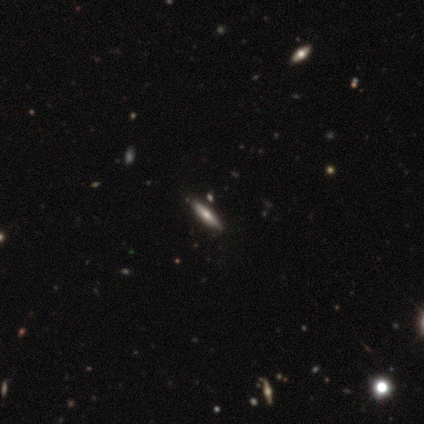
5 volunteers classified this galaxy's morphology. A featured or disk galaxy (80%) viewed edge-on (100%) with a rounded central bulge (100%).

Vote fractions:
- Smooth or featured? featured or disk: 80% / smooth: 20% / star or artifact: 0%
- Edge-on disk? yes: 100% / no: 0%
- Edge-on bulge? rounded: 100% / boxy: 0% / none: 0%
- Merging? none: 100% / minor disturbance: 0% / major disturbance: 0% / merger: 0%